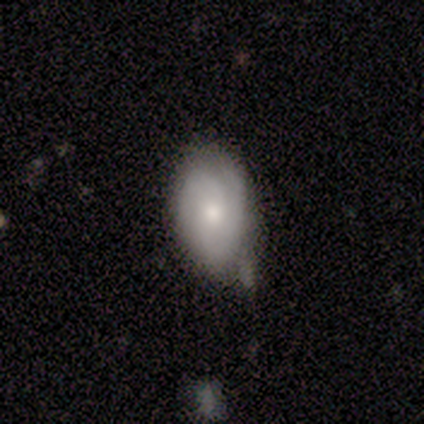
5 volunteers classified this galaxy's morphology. A smooth galaxy with no disk features (60%) that is in between round and cigar-shaped (67%).

Vote fractions:
- Smooth or featured? smooth: 60% / featured or disk: 20% / star or artifact: 20%
- How rounded? in between: 67% / round: 33% / cigar-shaped: 0%
- Merging? none: 50% (tied) / minor disturbance: 50% (tied) / major disturbance: 0% / merger: 0%